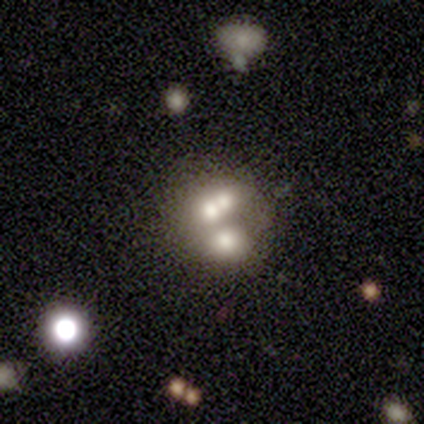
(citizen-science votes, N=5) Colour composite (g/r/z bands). It shows a smooth galaxy with no disk features (40%, tied with star or artifact) that is round (100%). Merging: merger (67%).